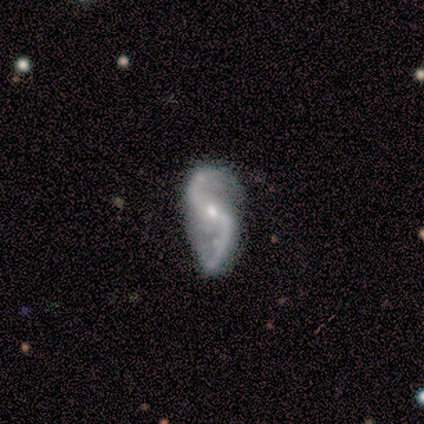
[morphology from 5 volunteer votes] Smooth or featured? 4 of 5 (80%) said featured or disk. Edge-on disk? 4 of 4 (100%) said no. Bar? 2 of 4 (50%) said weak. Spiral arms? 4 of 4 (100%) said yes. Spiral winding? 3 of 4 (75%) said loose. Spiral arm count? 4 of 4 (100%) said 2. Bulge size? 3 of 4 (75%) said small. Merging? 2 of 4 (50%, tied with major disturbance) said none.